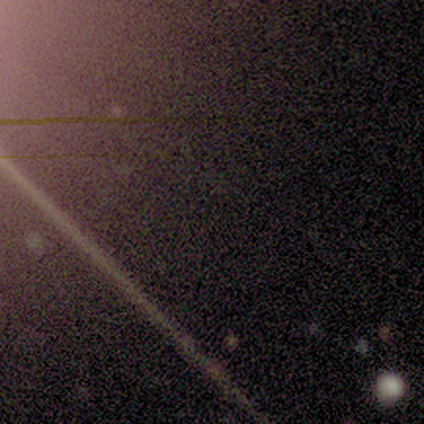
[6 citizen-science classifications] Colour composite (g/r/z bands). It shows a star or artifact, not a galaxy (83%).